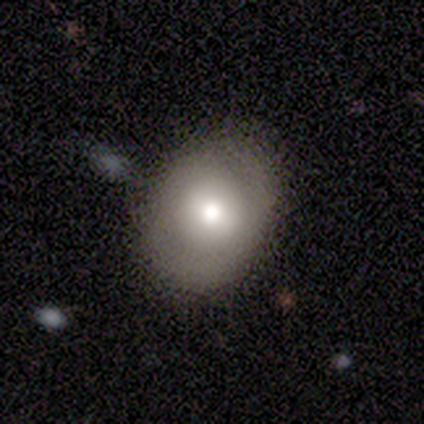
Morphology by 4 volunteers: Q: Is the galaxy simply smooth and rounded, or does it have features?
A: smooth — 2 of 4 (50%, tied with featured or disk).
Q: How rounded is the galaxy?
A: round — 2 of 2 (100%).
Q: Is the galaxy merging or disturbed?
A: none — 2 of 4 (50%, tied with minor disturbance).